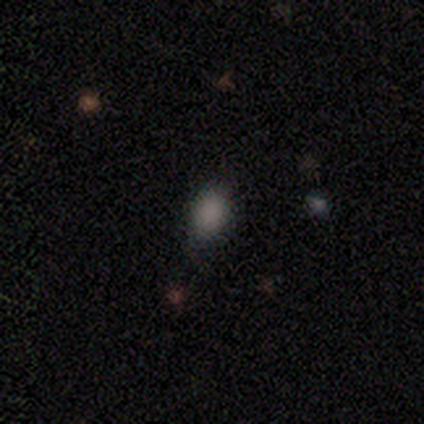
A smooth galaxy with no disk features (71%) that is in between round and cigar-shaped (60%). Merging: none (80%).